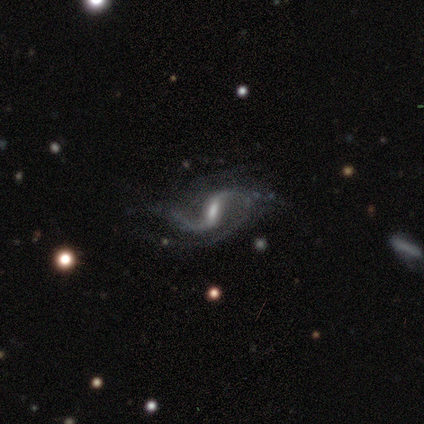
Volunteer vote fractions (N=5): smooth_or_featured: featured or disk (p=1.00)
disk_edge_on: no (p=1.00)
bar: weak (p=0.60) [alt: strong p=0.20]
has_spiral_arms: yes (p=0.80) [alt: no p=0.20]
spiral_winding: loose (p=1.00)
spiral_arm_count: 2 (p=1.00)
bulge_size: moderate (p=0.40) [tied with: small p=0.40]
merging: minor disturbance (p=0.80) [alt: major disturbance p=0.20]